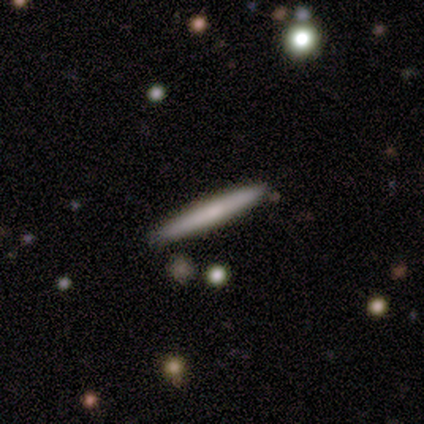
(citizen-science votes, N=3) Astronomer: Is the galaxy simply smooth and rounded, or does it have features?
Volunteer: smooth — 100%.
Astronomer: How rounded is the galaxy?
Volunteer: cigar-shaped — 100%.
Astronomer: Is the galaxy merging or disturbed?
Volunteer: none — 67%.